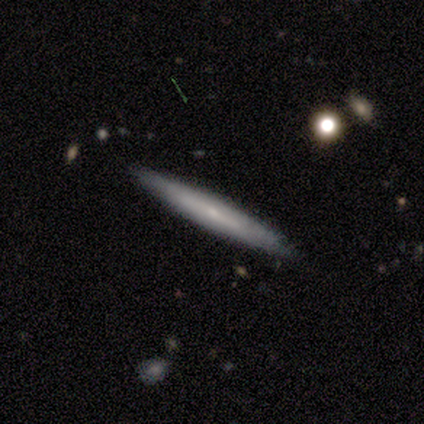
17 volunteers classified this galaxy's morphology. Smooth or featured? featured or disk (47%)
Edge-on disk? yes (100%)
Edge-on bulge? none (50%, tied with rounded)
Merging? none (100%)